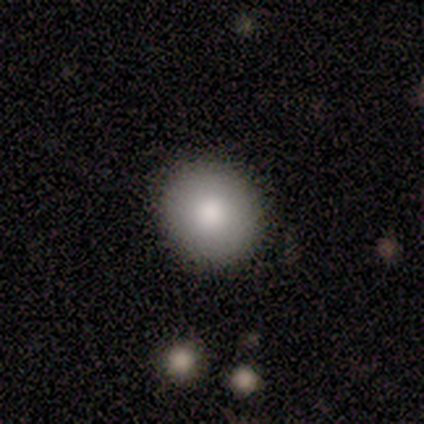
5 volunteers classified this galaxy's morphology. type=smooth (100%); roundness=round (100%); merging=none (80%).